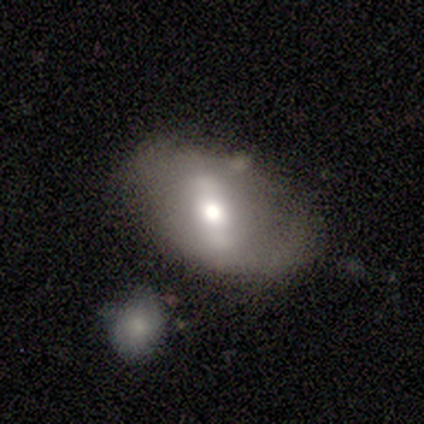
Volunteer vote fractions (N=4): smooth 50% (tied), featured or disk 50% (tied), star or artifact 0%. Down the decision tree: how rounded — round (100%); merging — none (100%).